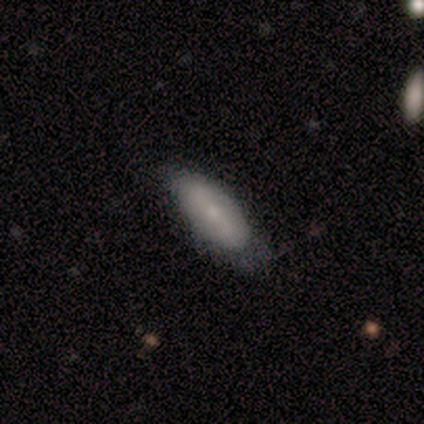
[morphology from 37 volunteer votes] This is likely a smooth galaxy (70%). How rounded: clearly in between (85%). Merging: possibly none (57%).